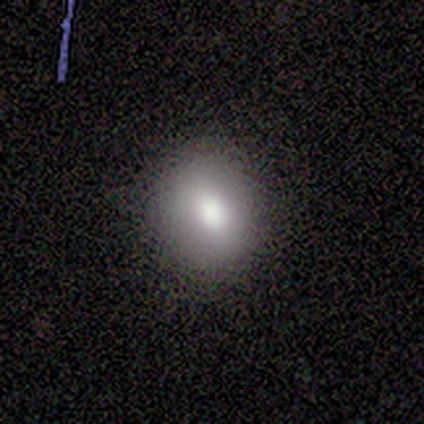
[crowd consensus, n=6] smooth_or_featured: smooth (p=0.83) [alt: featured or disk p=0.17]
how_rounded: round (p=1.00)
merging: none (p=0.83) [alt: minor disturbance p=0.17]